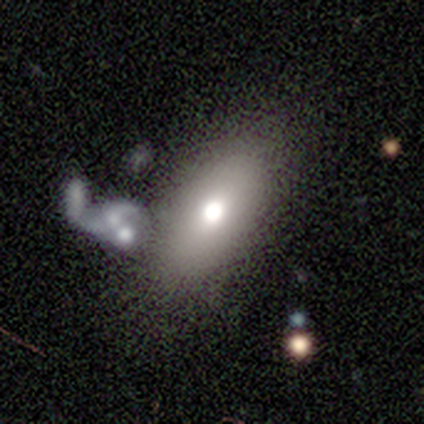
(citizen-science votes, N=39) smooth-or-featured: smooth: 62% | featured or disk: 33% | star or artifact: 5%
  how-rounded: in between: 92% | round: 4% | cigar-shaped: 4%
  merging: none: 62% | major disturbance: 16% | merger: 14% | minor disturbance: 8%